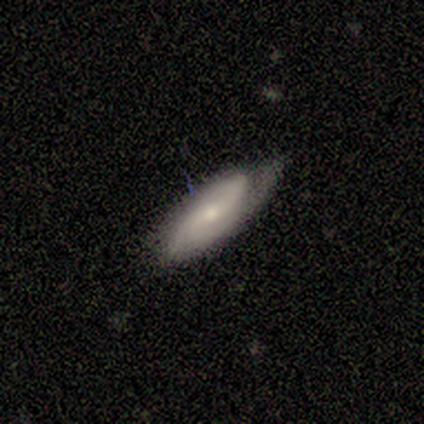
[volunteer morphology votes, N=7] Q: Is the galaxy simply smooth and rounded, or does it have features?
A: featured or disk — 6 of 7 (86%).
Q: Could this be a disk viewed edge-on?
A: no — 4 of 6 (67%).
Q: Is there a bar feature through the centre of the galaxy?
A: weak — 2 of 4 (50%, tied with no).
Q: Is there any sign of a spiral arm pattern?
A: yes — 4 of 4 (100%).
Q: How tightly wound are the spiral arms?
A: tight — 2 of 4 (50%, tied with medium).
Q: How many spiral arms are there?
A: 2 — 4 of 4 (100%).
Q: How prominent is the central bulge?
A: small — 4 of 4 (100%).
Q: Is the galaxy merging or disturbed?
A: minor disturbance — 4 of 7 (57%).